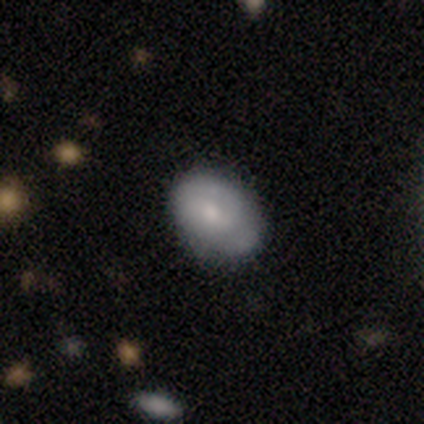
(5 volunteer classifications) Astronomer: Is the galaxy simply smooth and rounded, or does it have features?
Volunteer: smooth — 100%.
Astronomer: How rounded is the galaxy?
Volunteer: in between — 100%.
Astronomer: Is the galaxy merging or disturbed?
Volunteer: none — 80%.